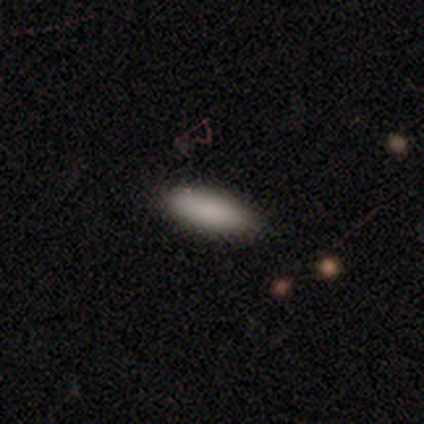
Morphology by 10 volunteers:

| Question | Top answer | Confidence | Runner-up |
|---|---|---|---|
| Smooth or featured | smooth | 100% | — |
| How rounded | in between | 60% | cigar-shaped (40%) |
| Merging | none | 90% | minor disturbance (10%) |